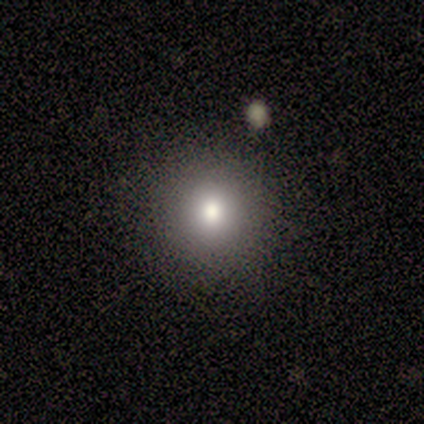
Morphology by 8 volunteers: This appears to be a smooth galaxy with no disk features (50%) that is round (100%). Merging: none (100%).